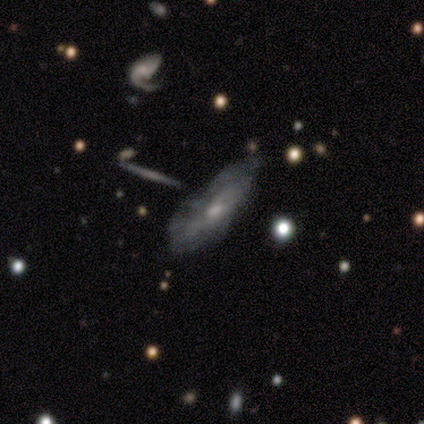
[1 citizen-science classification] A featured or disk galaxy (100%) with no bar (100%), no spiral arms (100%) and a small central bulge (100%). Merging: major disturbance (100%).